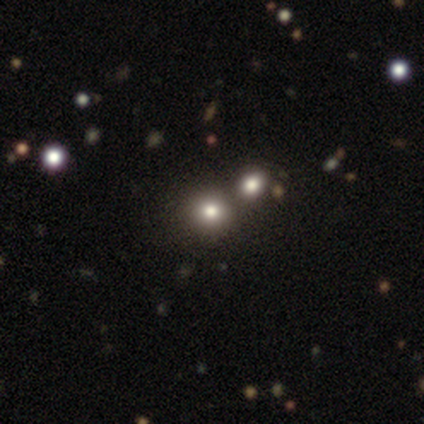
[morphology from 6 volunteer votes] Overall: smooth (50%, tied with star or artifact). How rounded: round (100%). Merging: none (33%, tied with minor disturbance and merger).